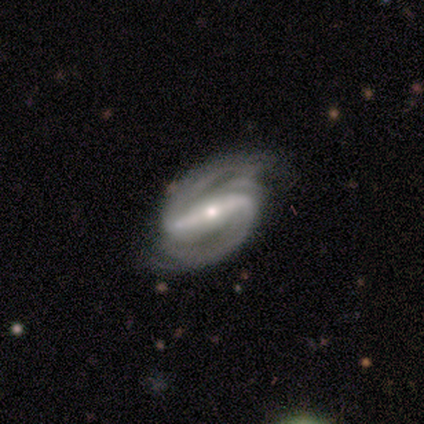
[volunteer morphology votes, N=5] This is clearly a featured or disk galaxy (100%). It is clearly not viewed edge-on (100%). Bar: clearly strong (100%). Spiral arm pattern: clearly yes (100%). Spiral arm count: clearly 2 (100%). Spiral winding: likely medium (60%). Central bulge: clearly small (80%). Merging: likely none (60%).